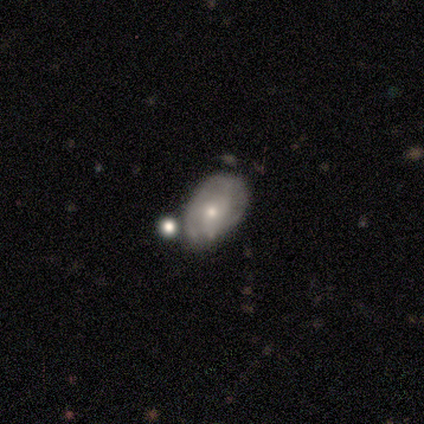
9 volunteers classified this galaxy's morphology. Overall: featured or disk (78%). Edge-on disk: no (100%). Bar: no (100%). Spiral arms: yes (57%; no 43%). Spiral arm count: can't tell (75%). Spiral winding: medium (100%). Bulge size: small (86%). Merging: none (50%, tied with minor disturbance).